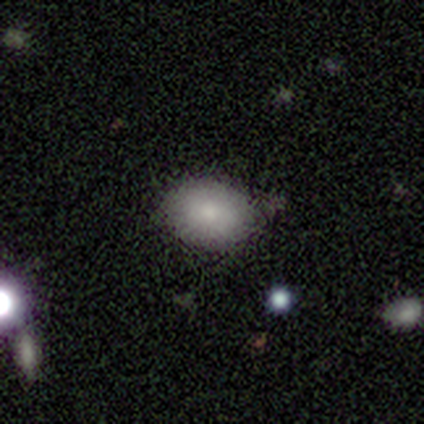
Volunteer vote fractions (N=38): Smooth or featured: smooth — 89% (star or artifact — 8%)
How rounded: in between — 79% (round — 21%)
Merging: none — 71% (minor disturbance — 26%)